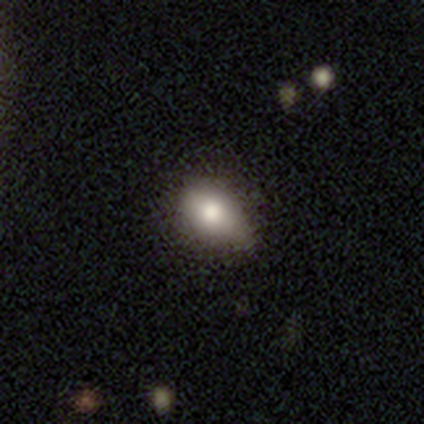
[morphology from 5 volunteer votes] A smooth galaxy with no disk features (100%) that is in between round and cigar-shaped (60%). Merging: none (100%).